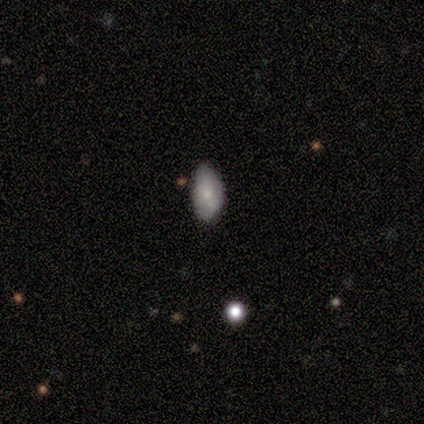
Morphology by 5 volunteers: featured or disk 60%, smooth 40%, star or artifact 0%. Down the decision tree: edge-on disk — no (67%); bar — no (100%); spiral arms — no (100%); bulge size — moderate (50%, tied with small); merging — none (60%).